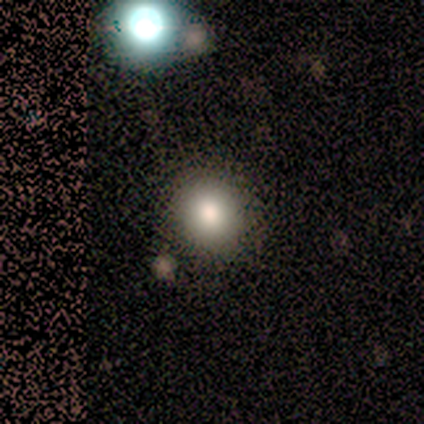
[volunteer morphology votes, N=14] smooth_or_featured: smooth (p=0.86) [alt: star or artifact p=0.14]
how_rounded: round (p=0.83) [alt: in between p=0.17]
merging: none (p=0.92) [alt: merger p=0.08]